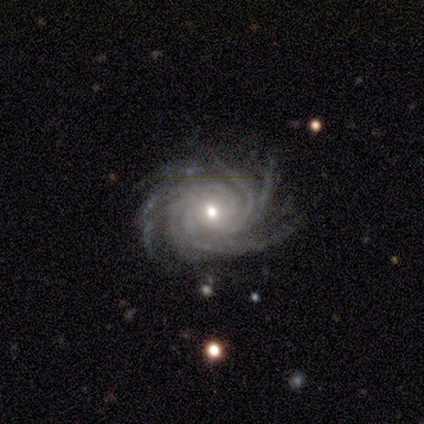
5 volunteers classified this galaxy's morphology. Smooth or featured: featured or disk — 100%
Edge-on disk: no — 100%
Bar: no — 60% (strong — 40%)
Spiral arms: yes — 100%
Spiral winding: tight — 80% (medium — 20%)
Spiral arm count: more than 4 — 80% (can't tell — 20%)
Bulge size: small — 80% (moderate — 20%)
Merging: none — 80% (merger — 20%)